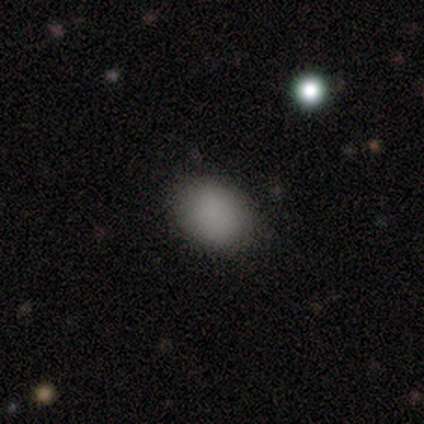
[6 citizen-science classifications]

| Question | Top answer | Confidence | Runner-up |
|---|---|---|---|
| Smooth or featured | smooth | 83% | featured or disk (17%) |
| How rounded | round | 60% | in between (40%) |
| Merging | none | 50% | tied: minor disturbance (50%) |